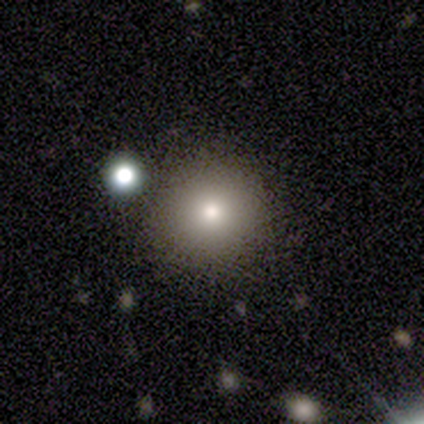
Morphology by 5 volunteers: smooth 60%, star or artifact 40%, featured or disk 0%. Down the decision tree: how rounded — round (100%); merging — none (67%).